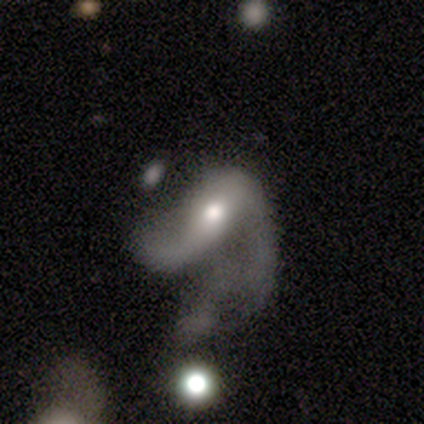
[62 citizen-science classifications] Smooth or featured: featured or disk — 79% (star or artifact — 11%)
Edge-on disk: no — 100%
Bar: no — 41% (weak — 31%)
Spiral arms: yes — 78% (no — 22%)
Spiral winding: loose — 76% (medium — 18%)
Spiral arm count: 2 — 61% (1 — 21%)
Bulge size: moderate — 78% (small — 12%)
Merging: major disturbance — 73% (merger — 20%)